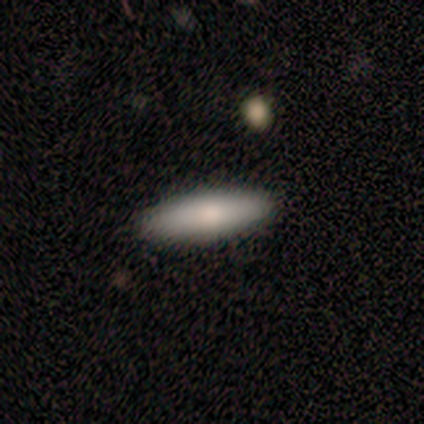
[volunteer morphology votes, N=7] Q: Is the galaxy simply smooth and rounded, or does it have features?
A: smooth — 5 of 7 (71%).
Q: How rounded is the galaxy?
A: cigar-shaped — 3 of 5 (60%).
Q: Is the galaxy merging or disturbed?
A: none — 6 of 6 (100%).